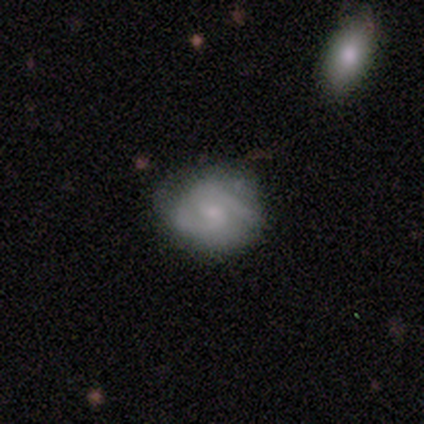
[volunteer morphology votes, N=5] smooth-or-featured: featured or disk: 80% | smooth: 20% | star or artifact: 0%
  disk-edge-on: no: 100% | yes: 0%
    bar: no: 75% | weak: 25% | strong: 0%
    has-spiral-arms: yes: 100% | no: 0%
      spiral-winding: tight: 50% | medium: 25% | loose: 25%
      spiral-arm-count: 2: 100% | 1: 0% | 3: 0% | 4: 0% | more than 4: 0% | can't tell: 0%
    bulge-size: moderate: 50% (tied) | small: 50% (tied) | dominant: 0% | large: 0% | none: 0%
  merging: none: 80% | minor disturbance: 20% | major disturbance: 0% | merger: 0%